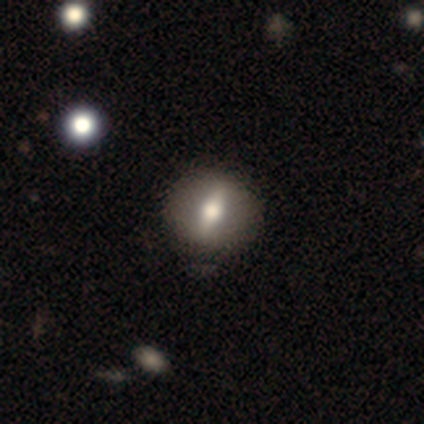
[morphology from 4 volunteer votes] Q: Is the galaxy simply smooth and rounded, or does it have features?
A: star or artifact — 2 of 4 (50%).